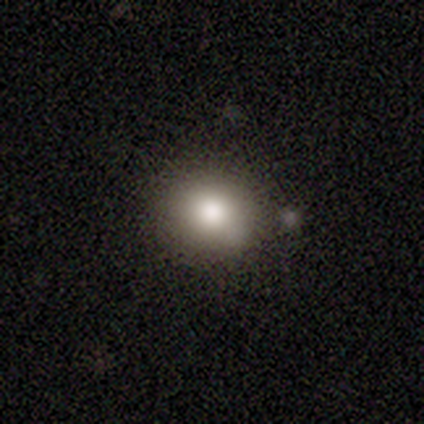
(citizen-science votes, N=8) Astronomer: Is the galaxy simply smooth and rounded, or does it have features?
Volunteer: smooth — 88%.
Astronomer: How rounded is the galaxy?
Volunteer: round — 57% (runner-up: in between, 43%).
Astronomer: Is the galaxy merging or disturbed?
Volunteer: none — 71%.